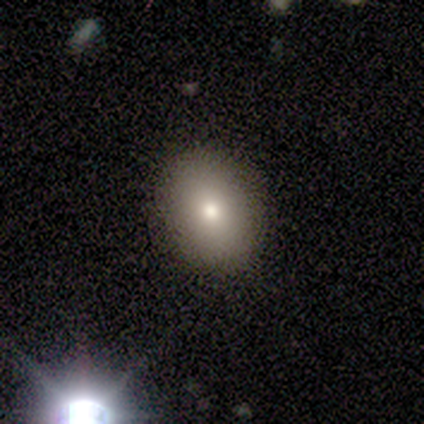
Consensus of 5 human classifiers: Volunteers were most divided on "how rounded": in between: 67%, round: 33%, cigar-shaped: 0%. More confident: merging — none (75%); smooth or featured — smooth (60%).